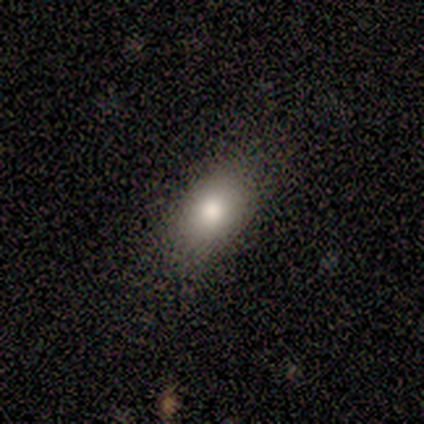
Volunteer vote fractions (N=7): This appears to be a smooth galaxy with no disk features (71%) that is in between round and cigar-shaped (100%). Merging: none (83%).